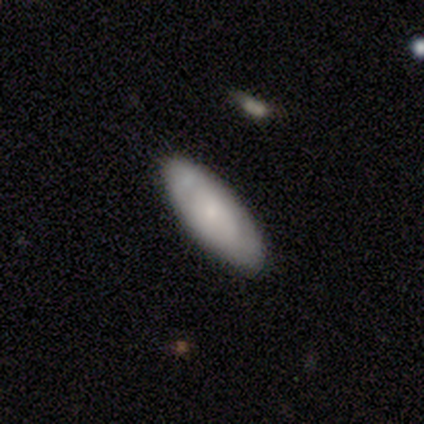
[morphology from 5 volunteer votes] smooth_or_featured: smooth (p=1.00)
how_rounded: in between (p=1.00)
merging: none (p=1.00)